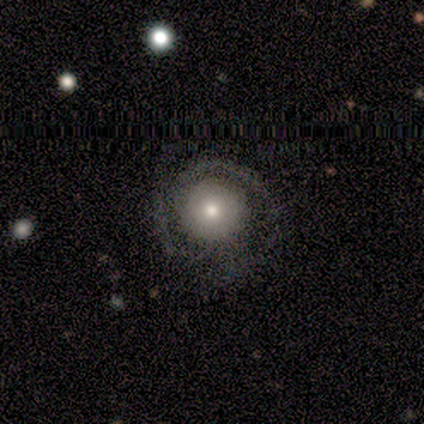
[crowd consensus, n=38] Volunteers were most divided on "spiral winding": tight: 50%, medium: 36%, loose: 14%. More confident: edge-on disk — no (96%); spiral arms — yes (96%); merging — none (72%); bar — no (70%); bulge size — moderate (65%); smooth or featured — featured or disk (63%); spiral arm count — 2 (55%).